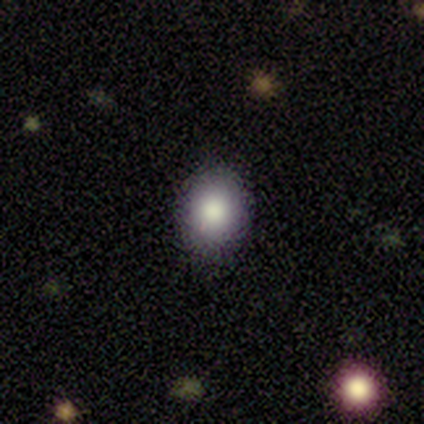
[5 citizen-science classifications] A smooth galaxy with no disk features (80%) that is round (50%, tied with in between). Merging: none (75%).